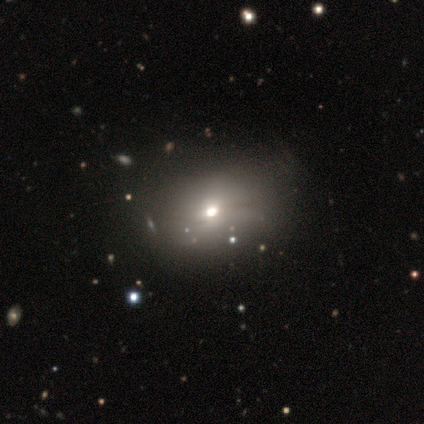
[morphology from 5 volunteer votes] smooth-or-featured: smooth: 60% | star or artifact: 40% | featured or disk: 0%
  how-rounded: in between: 100% | round: 0% | cigar-shaped: 0%
  merging: minor disturbance: 67% | none: 33% | major disturbance: 0% | merger: 0%